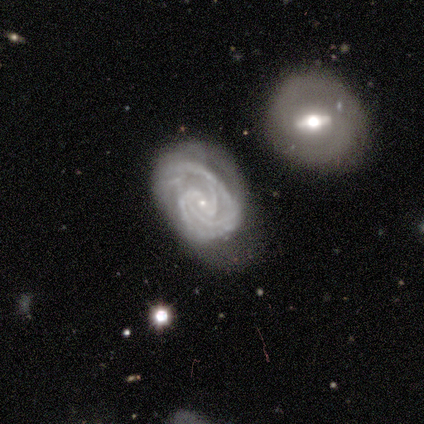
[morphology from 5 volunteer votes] A featured or disk galaxy (100%) with a weak bar (60%), 3 (60%) tight (60%) spiral arms (100%) and a small central bulge (100%). Merging: none (60%).